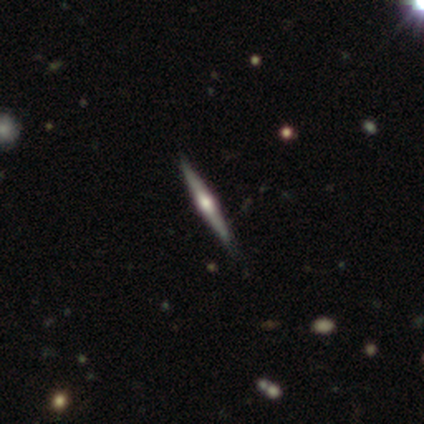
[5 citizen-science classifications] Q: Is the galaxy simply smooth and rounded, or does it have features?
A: featured or disk — 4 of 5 (80%).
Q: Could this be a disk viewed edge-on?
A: yes — 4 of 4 (100%).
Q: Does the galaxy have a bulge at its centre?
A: rounded — 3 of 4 (75%).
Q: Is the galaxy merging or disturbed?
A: none — 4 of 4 (100%).